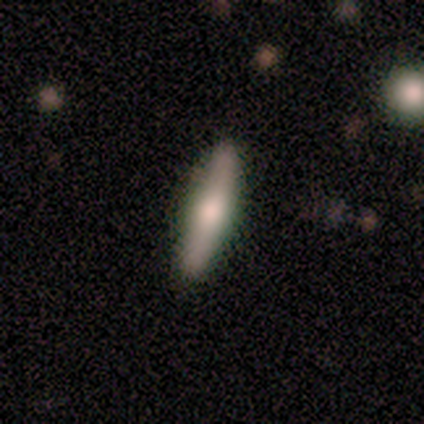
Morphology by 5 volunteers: smooth 60%, featured or disk 20%, star or artifact 20%. Down the decision tree: how rounded — cigar-shaped (100%); merging — none (100%).